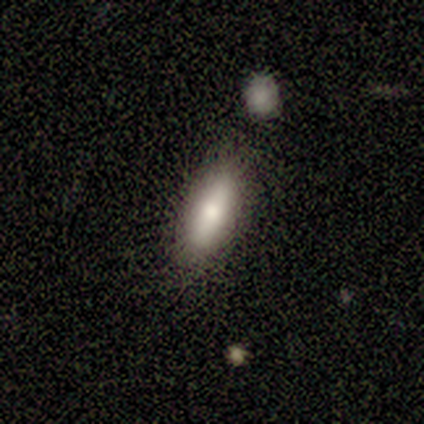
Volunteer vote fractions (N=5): Smooth or featured: smooth — 80% (featured or disk — 20%)
How rounded: in between — 50% (tied with cigar-shaped — 50%)
Merging: none — 100%